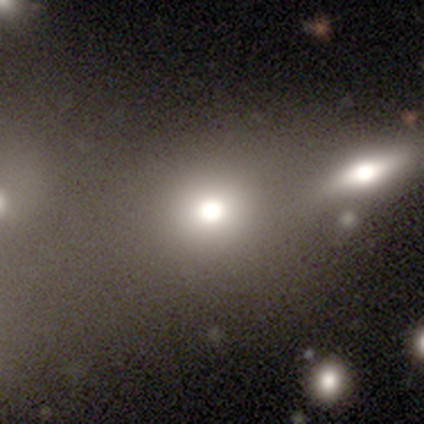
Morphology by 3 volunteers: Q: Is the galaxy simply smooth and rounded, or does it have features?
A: smooth — 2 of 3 (67%).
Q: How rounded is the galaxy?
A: round — 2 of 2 (100%).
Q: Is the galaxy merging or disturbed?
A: none — 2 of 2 (100%).